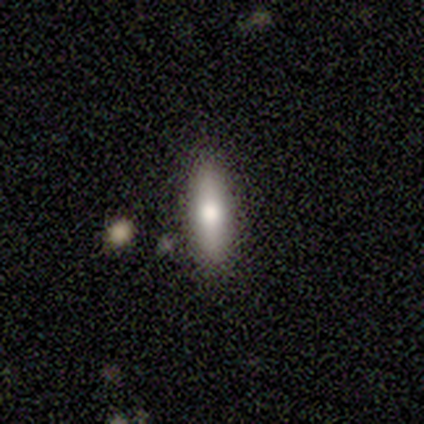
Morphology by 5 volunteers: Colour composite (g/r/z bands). It shows a smooth galaxy with no disk features (100%) that is cigar-shaped (80%). Merging: none (100%).